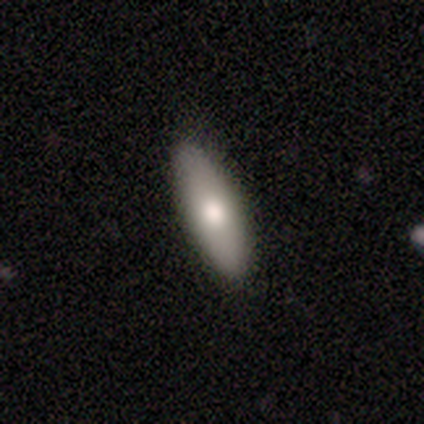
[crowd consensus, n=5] Smooth or featured? featured or disk (80%)
Edge-on disk? yes (75%)
Edge-on bulge? rounded (100%)
Merging? none (100%)